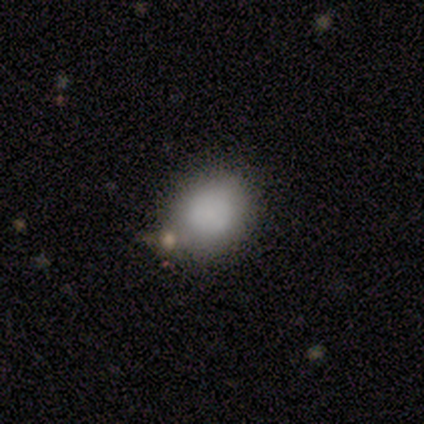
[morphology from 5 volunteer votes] A smooth galaxy with no disk features (100%) that is round (60%). Merging: none (40%, tied with minor disturbance).